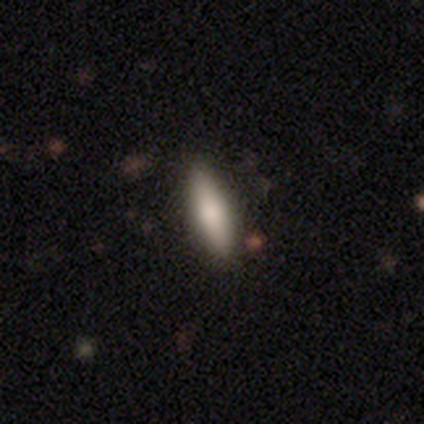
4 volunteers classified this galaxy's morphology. Overall: smooth (75%). How rounded: cigar-shaped (100%). Merging: minor disturbance (50%; none 25%).